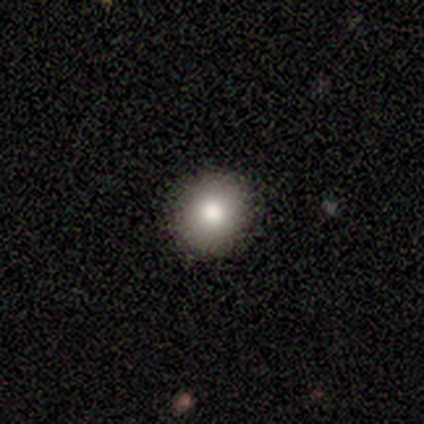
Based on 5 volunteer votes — Volunteers were most divided on "how rounded": round: 75%, in between: 25%, cigar-shaped: 0%. More confident: merging — none (100%); smooth or featured — smooth (80%).